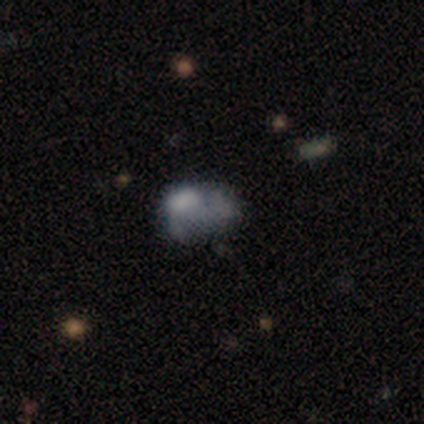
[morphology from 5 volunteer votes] A smooth galaxy with no disk features (40%, tied with featured or disk) that is in between round and cigar-shaped (50%, tied with cigar-shaped). Merging: major disturbance (50%).